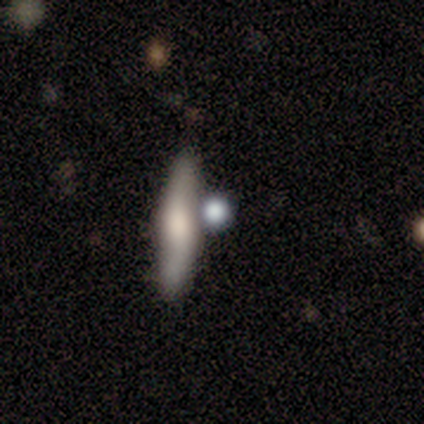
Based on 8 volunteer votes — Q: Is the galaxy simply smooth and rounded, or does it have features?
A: smooth — 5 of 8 (62%).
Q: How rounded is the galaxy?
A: cigar-shaped — 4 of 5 (80%).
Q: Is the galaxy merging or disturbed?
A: none — 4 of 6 (67%).